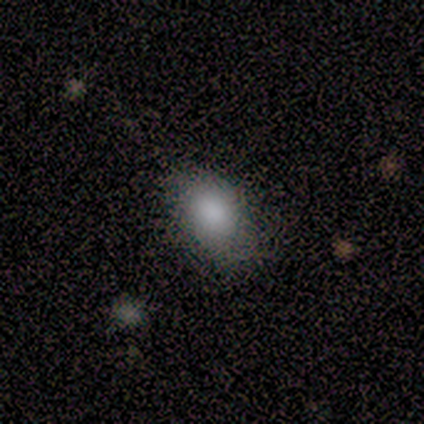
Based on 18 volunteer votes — Smooth or featured: smooth — 78% (featured or disk — 17%)
How rounded: in between — 100%
Merging: none — 76% (minor disturbance — 24%)